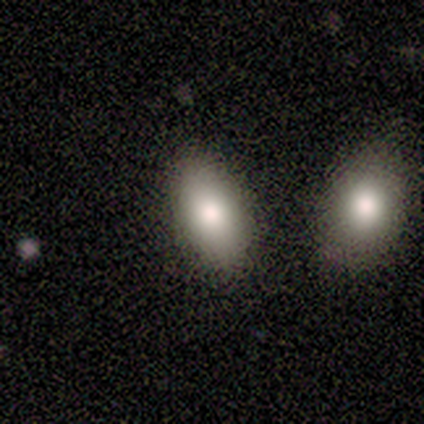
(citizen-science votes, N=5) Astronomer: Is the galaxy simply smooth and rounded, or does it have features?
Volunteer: smooth — 100%.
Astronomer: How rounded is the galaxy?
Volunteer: in between — 80%.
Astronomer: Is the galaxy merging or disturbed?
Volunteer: none — 80%.